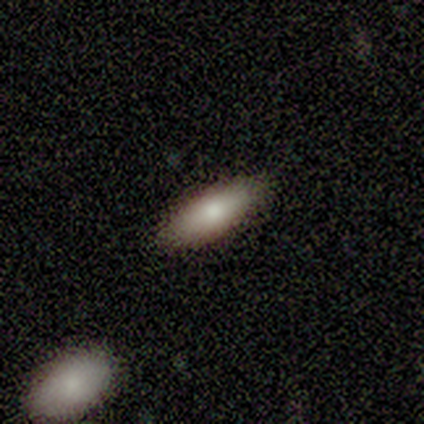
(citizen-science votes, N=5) A smooth galaxy with no disk features (100%) that is in between round and cigar-shaped (100%).

Vote fractions:
- Smooth or featured? smooth: 100% / featured or disk: 0% / star or artifact: 0%
- How rounded? in between: 100% / round: 0% / cigar-shaped: 0%
- Merging? none: 100% / minor disturbance: 0% / major disturbance: 0% / merger: 0%